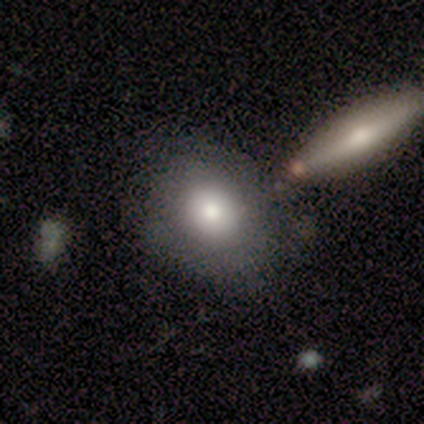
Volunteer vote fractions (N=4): This appears to be a smooth galaxy with no disk features (50%) that is round (50%, tied with in between). Merging: minor disturbance (67%).